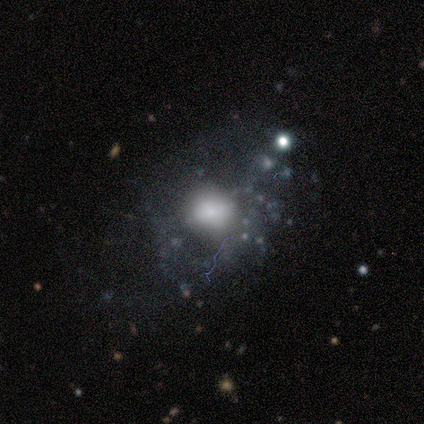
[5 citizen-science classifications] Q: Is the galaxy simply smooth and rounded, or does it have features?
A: featured or disk — 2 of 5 (40%, tied with star or artifact).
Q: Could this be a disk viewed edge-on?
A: no — 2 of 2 (100%).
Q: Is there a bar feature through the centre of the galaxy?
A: weak — 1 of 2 (50%, tied with no).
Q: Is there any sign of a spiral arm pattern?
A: no — 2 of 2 (100%).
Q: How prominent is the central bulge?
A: large — 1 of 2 (50%, tied with small).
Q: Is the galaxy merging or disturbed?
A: none — 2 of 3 (67%).